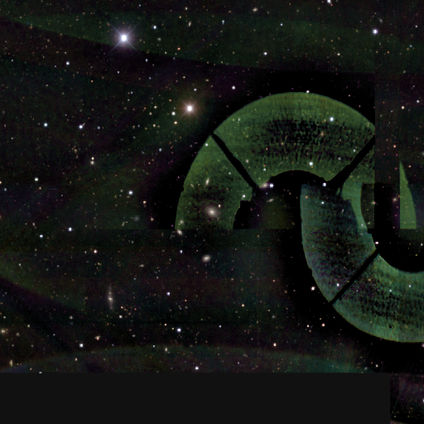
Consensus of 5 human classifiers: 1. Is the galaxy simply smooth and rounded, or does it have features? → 100% star or artifact, 0% smooth, 0% featured or disk.